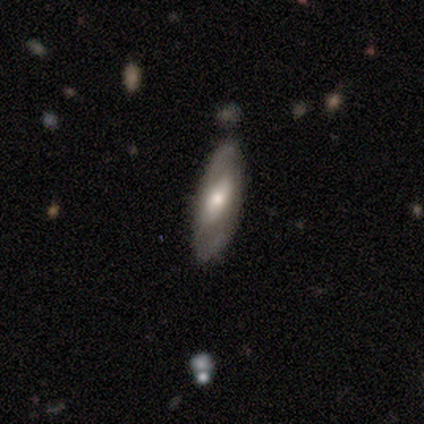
This is likely a featured or disk galaxy (60%). It is clearly not viewed edge-on (100%). Bar: likely no (67%). Spiral arm pattern: likely no (67%). Central bulge: marginally large (33%, tied with moderate and small). Merging: clearly none (100%).